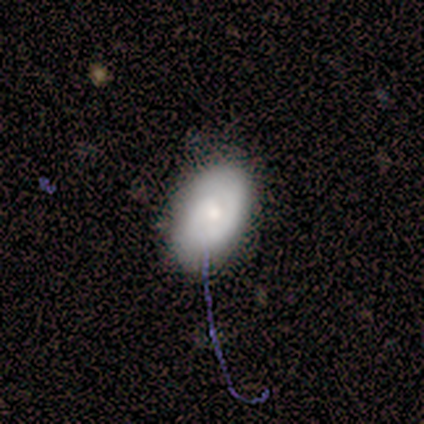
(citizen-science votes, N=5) A smooth galaxy with no disk features (60%) that is in between round and cigar-shaped (100%). Merging: none (80%).